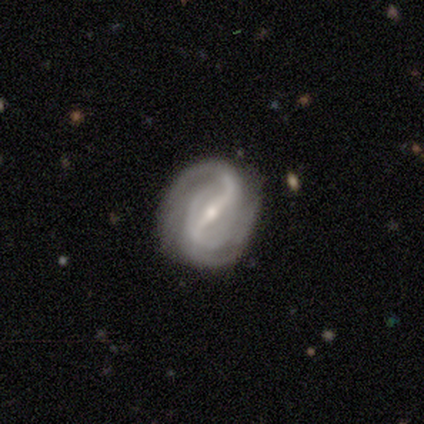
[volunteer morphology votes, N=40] This is clearly a featured or disk galaxy (98%). It is clearly not viewed edge-on (100%). Bar: clearly strong (82%). Spiral arm pattern: clearly yes (97%). Spiral arm count: likely 2 (76%). Spiral winding: possibly medium (55%). Central bulge: possibly moderate (51%). Merging: possibly none (45%).